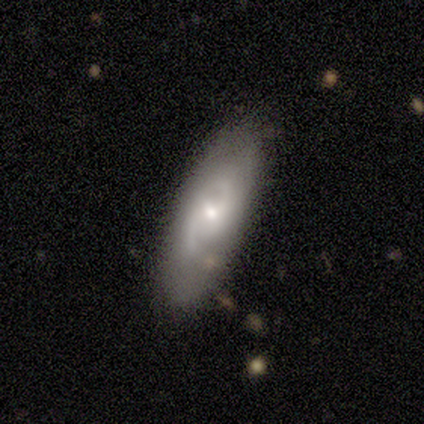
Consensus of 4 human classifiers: This is clearly a featured or disk galaxy (100%). It is likely not viewed edge-on (75%). Bar: likely weak (67%). Spiral arm pattern: likely yes (67%). Spiral arm count: clearly 2 (100%). Spiral winding: possibly medium (50%, tied with loose). Central bulge: likely small (67%). Merging: likely none (75%).